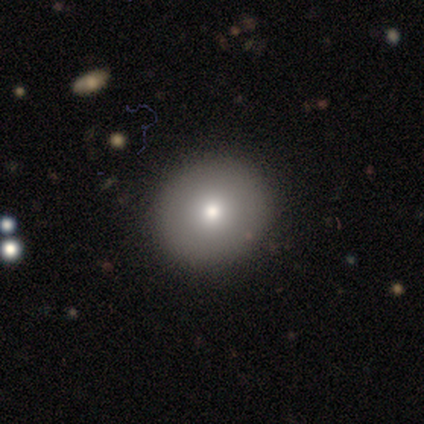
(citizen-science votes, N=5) This is clearly a smooth galaxy (80%). How rounded: likely round (75%). Merging: clearly none (100%).